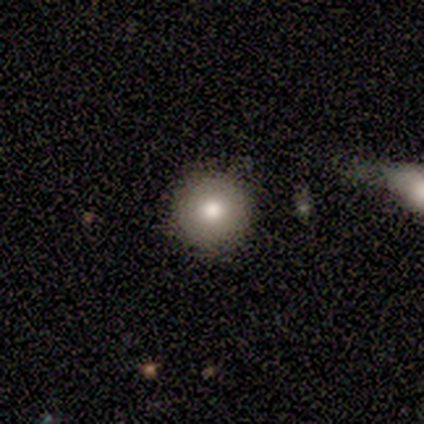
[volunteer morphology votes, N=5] Smooth or featured?
  - smooth: 80% *
  - featured or disk: 20%
  - star or artifact: 0%
How rounded?
  - round: 100% *
  - in between: 0%
  - cigar-shaped: 0%
Merging?
  - none: 80% *
  - minor disturbance: 20%
  - major disturbance: 0%
  - merger: 0%